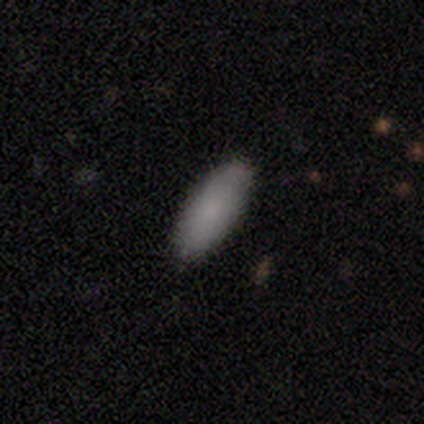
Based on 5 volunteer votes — Q: Smooth or featured?
A: smooth (100%)
Q: How rounded?
A: in between (80%); runner-up: cigar-shaped (20%)
Q: Merging?
A: none (80%); runner-up: minor disturbance (20%)